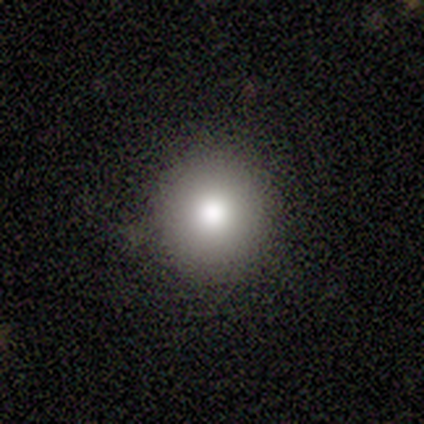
Smooth or featured? smooth (60%)
How rounded? round (100%)
Merging? none (100%)